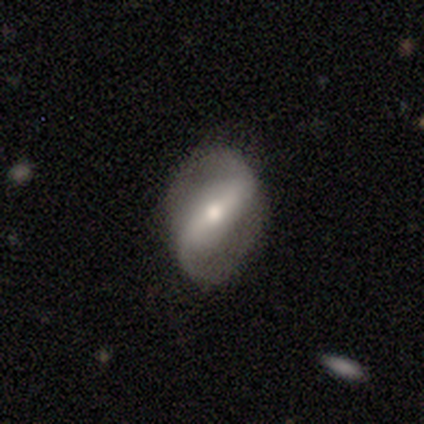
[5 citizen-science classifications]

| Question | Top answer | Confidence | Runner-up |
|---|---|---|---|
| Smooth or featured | featured or disk | 100% | — |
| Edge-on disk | no | 100% | — |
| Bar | strong | 60% | weak (20%) |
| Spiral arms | yes | 100% | — |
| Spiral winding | loose | 80% | tight (20%) |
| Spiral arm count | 2 | 100% | — |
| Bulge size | moderate | 40% | tied: small (40%) |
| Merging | none | 80% | minor disturbance (20%) |